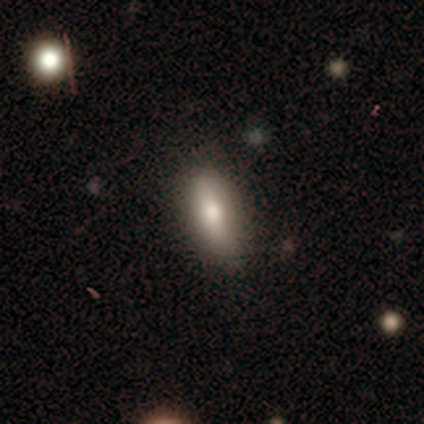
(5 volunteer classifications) Smooth or featured? smooth (40%, tied with featured or disk)
How rounded? in between (100%)
Merging? none (100%)